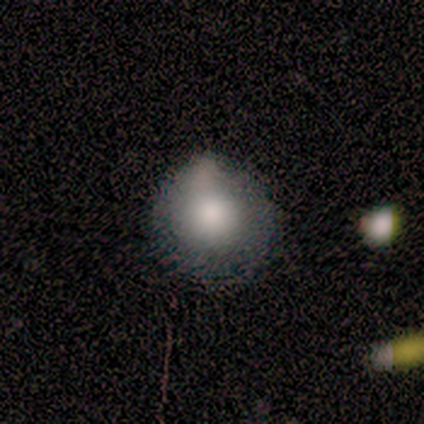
Overall: smooth (80%). How rounded: round (100%). Merging: none (75%).